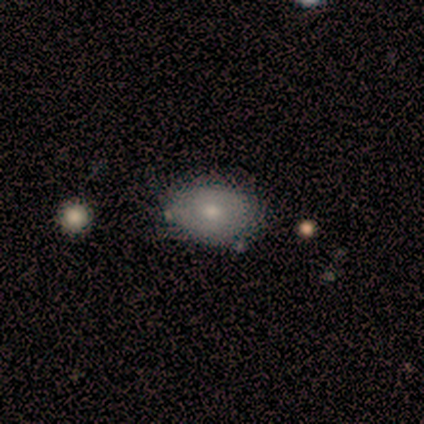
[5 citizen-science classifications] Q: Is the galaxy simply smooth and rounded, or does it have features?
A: smooth — 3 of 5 (60%).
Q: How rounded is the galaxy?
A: in between — 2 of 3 (67%).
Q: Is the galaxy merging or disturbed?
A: none — 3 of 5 (60%).